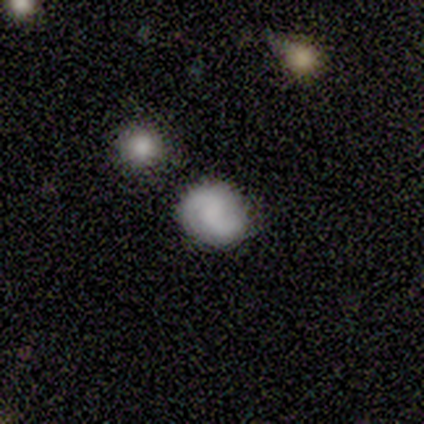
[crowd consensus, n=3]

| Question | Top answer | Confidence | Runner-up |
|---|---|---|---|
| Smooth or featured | smooth | 67% | featured or disk (33%) |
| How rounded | round | 50% | tied: in between (50%) |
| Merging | none | 100% | — |